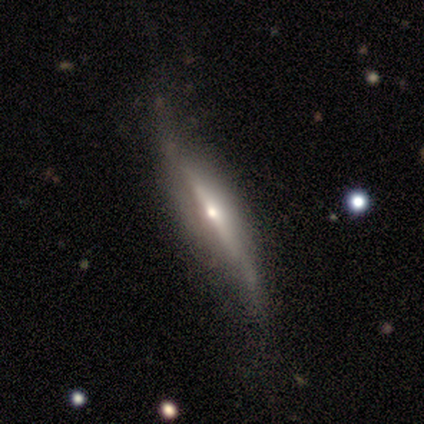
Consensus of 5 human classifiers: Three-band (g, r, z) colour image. It shows a featured or disk galaxy (100%) viewed edge-on (100%) with a rounded central bulge (60%). Merging: none (60%).